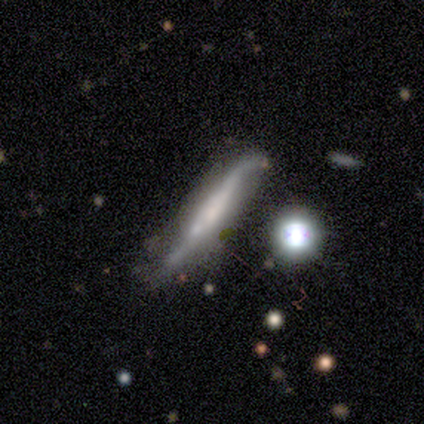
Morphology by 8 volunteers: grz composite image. It shows a smooth galaxy with no disk features (62%) that is cigar-shaped (100%). Merging: minor disturbance (50%).